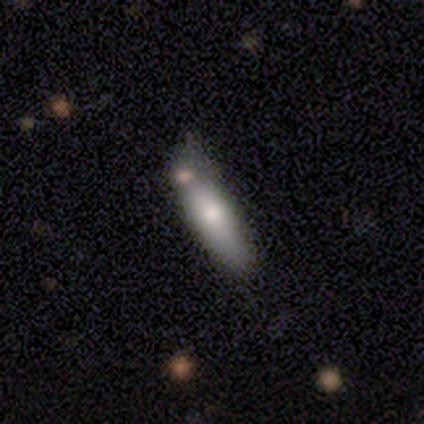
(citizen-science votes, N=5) Morphology: type=smooth (40%, tied with featured or disk); roundness=cigar-shaped (100%); merging=none (100%).